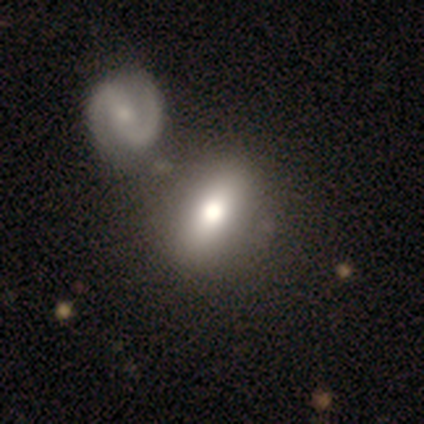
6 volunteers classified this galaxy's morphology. A smooth galaxy with no disk features (83%) that is in between round and cigar-shaped (60%).

Vote fractions:
- Smooth or featured? smooth: 83% / featured or disk: 17% / star or artifact: 0%
- How rounded? in between: 60% / round: 40% / cigar-shaped: 0%
- Merging? none: 50% / merger: 33% / minor disturbance: 17% / major disturbance: 0%